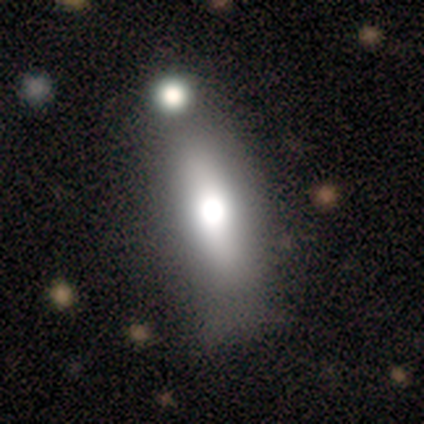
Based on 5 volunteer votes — A smooth galaxy with no disk features (80%) that is round (50%). Merging: none (80%).